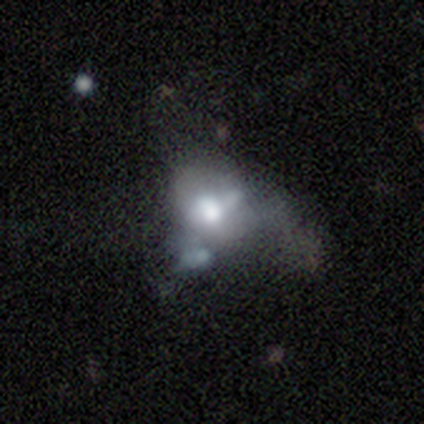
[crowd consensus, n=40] A smooth galaxy with no disk features (48%) that is in between round and cigar-shaped (58%). Merging: merger (42%).